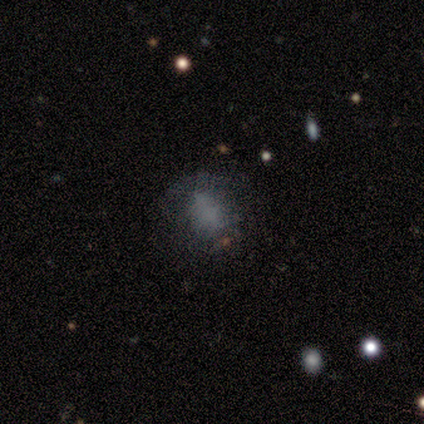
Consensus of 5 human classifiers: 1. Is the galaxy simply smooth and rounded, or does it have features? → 80% smooth, 20% featured or disk, 0% star or artifact.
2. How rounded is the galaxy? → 100% in between, 0% round, 0% cigar-shaped.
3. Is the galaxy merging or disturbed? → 60% none, 20% major disturbance, 20% merger, 0% minor disturbance.